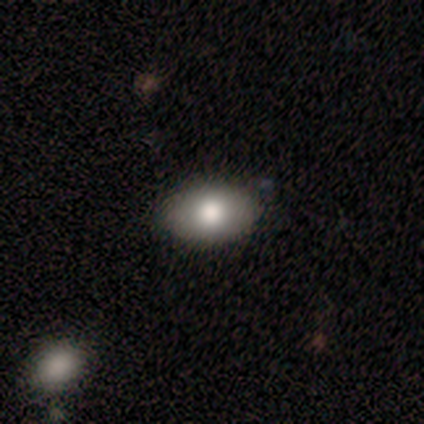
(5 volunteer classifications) This is clearly a smooth galaxy (100%). How rounded: clearly in between (100%). Merging: clearly none (80%).